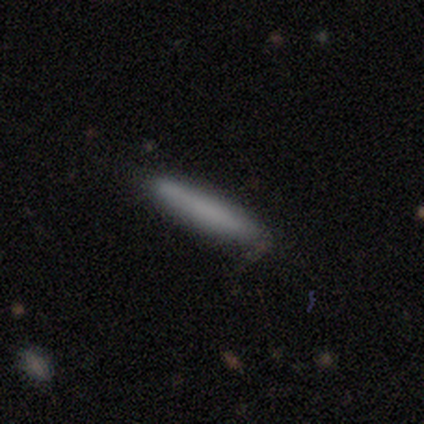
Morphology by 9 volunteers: smooth 67%, featured or disk 22%, star or artifact 11%. Down the decision tree: how rounded — cigar-shaped (100%); merging — none (88%).